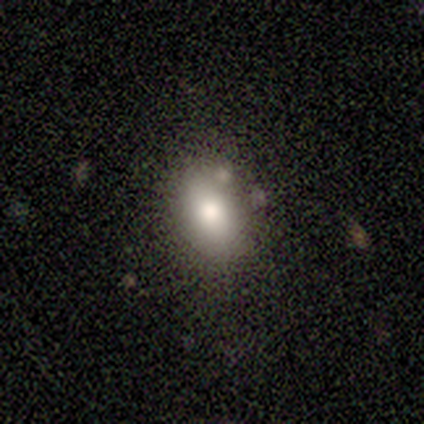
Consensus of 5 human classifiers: Morphology: type=smooth (100%); roundness=in between (100%); merging=none (100%).